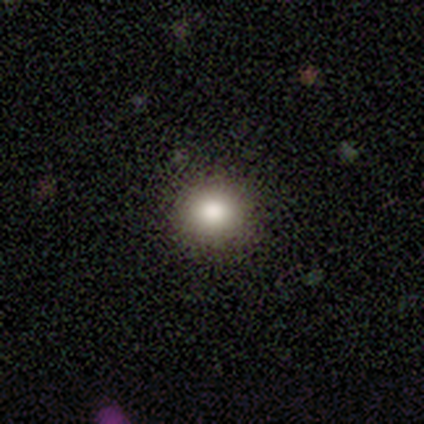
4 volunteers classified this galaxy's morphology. Q: Smooth or featured?
A: smooth (100%)
Q: How rounded?
A: round (75%); runner-up: in between (25%)
Q: Merging?
A: none (100%)